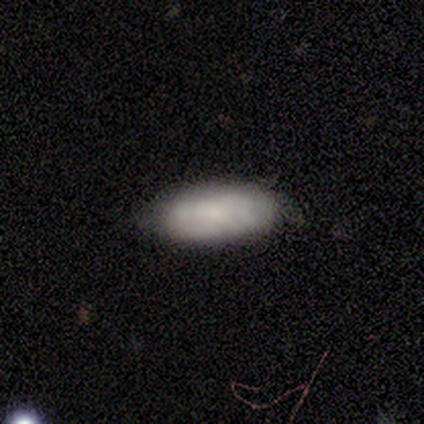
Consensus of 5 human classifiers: Smooth or featured: smooth — 100%
How rounded: in between — 80% (round — 20%)
Merging: none — 60% (minor disturbance — 20%)